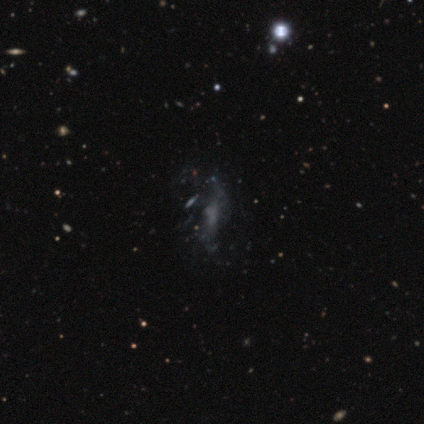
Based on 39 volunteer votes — This is likely a featured or disk galaxy (67%). It is clearly not viewed edge-on (100%). Bar: likely no (77%). Spiral arm pattern: likely no (69%). Central bulge: likely none (65%). Merging: possibly none (52%).